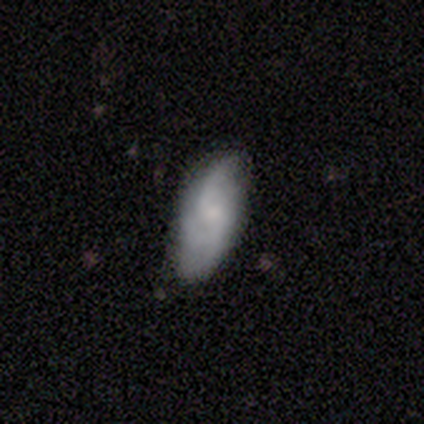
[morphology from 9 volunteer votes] Smooth or featured? featured or disk (67%)
Edge-on disk? no (100%)
Bar? no (67%)
Spiral arms? yes (100%)
Spiral winding? medium (50%)
Spiral arm count? 3 (50%)
Bulge size? small (67%)
Merging? none (89%)